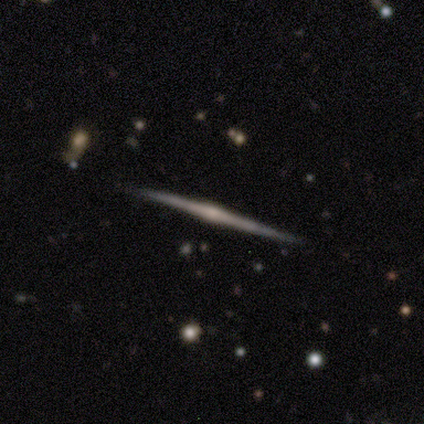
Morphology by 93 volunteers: type=featured or disk (87%); edge-on=yes (100%); edge-on bulge=rounded (74%); merging=none (96%).